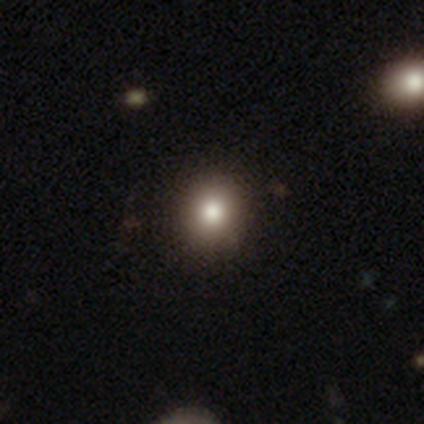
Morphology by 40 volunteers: type=smooth (72%); roundness=round (90%); merging=none (87%).